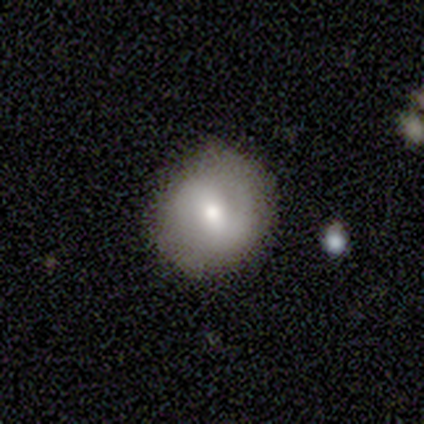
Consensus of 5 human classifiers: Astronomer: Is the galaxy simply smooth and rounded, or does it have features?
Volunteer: featured or disk — 40%, tied with star or artifact at 40%.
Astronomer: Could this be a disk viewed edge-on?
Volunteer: no — 100%.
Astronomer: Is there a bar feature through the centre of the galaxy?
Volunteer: weak — 50%, tied with no at 50%.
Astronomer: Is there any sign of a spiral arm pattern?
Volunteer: yes — 50%, tied with no at 50%.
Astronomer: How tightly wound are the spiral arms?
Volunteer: tight — 100%.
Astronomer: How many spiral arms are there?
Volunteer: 2 — 100%.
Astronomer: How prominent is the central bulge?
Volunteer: moderate — 50%, tied with small at 50%.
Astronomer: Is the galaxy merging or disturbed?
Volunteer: none — 67%.